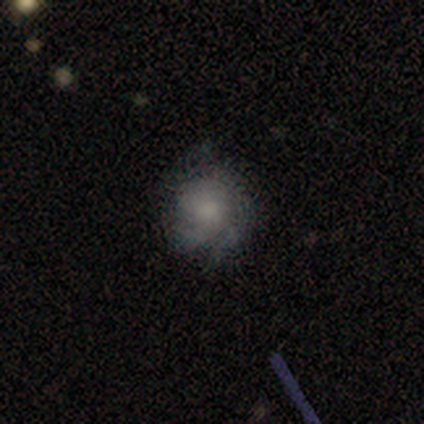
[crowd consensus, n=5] smooth 40% (tied), featured or disk 40% (tied), star or artifact 20%. Down the decision tree: how rounded — round (100%); merging — none (100%).